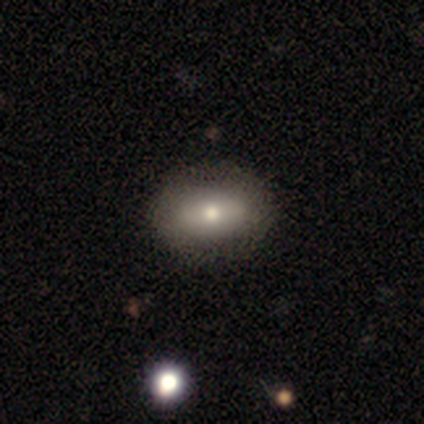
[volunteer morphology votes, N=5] type=smooth (80%); roundness=in between (50%); merging=none (60%).